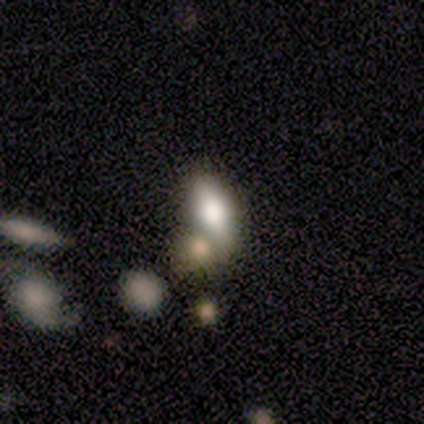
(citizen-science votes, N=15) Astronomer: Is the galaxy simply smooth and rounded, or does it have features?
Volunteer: smooth — 47% (runner-up: star or artifact, 33%).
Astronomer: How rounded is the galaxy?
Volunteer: in between — 57% (runner-up: cigar-shaped, 43%).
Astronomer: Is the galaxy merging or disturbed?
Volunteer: merger — 60%.